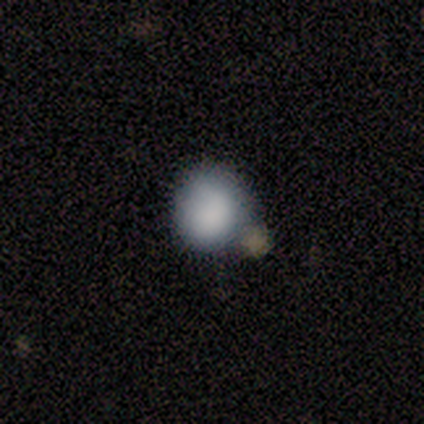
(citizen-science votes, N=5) smooth_or_featured: smooth (p=0.60) [alt: featured or disk p=0.20]
how_rounded: round (p=1.00)
merging: none (p=0.75) [alt: merger p=0.25]